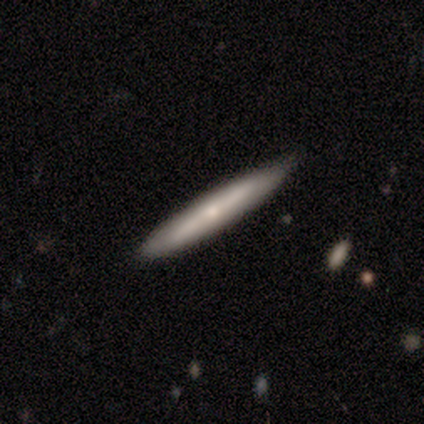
This is marginally a smooth galaxy (43%). How rounded: clearly cigar-shaped (100%). Merging: clearly none (100%).